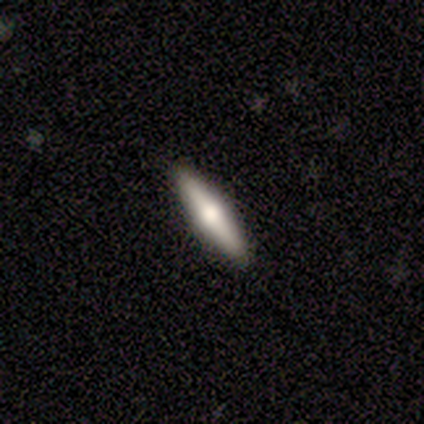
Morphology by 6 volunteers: A smooth galaxy with no disk features (67%) that is cigar-shaped (100%). Merging: none (100%).